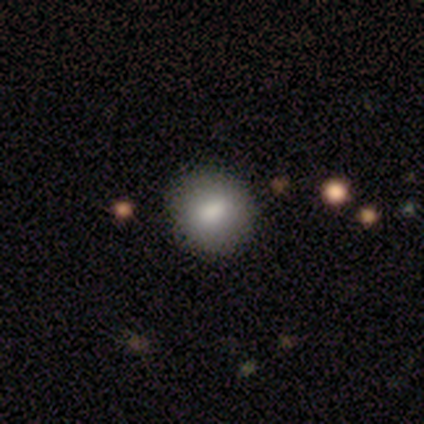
This is clearly a smooth galaxy (100%). How rounded: clearly round (100%). Merging: clearly none (100%).